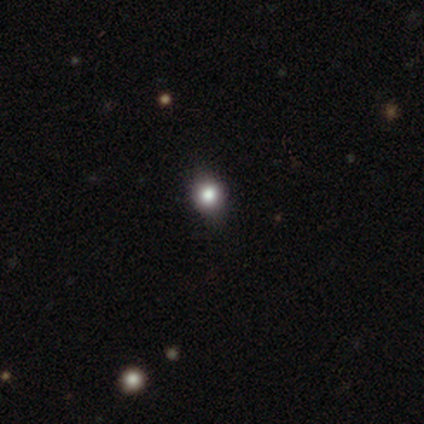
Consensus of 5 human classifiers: smooth 80%, star or artifact 20%, featured or disk 0%. Down the decision tree: how rounded — round (100%); merging — none (100%).